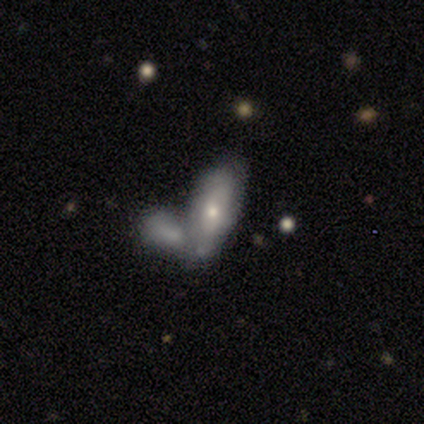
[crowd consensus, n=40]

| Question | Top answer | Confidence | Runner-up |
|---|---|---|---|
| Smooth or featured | smooth | 60% | featured or disk (32%) |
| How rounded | in between | 79% | cigar-shaped (21%) |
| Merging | merger | 57% | none (24%) |